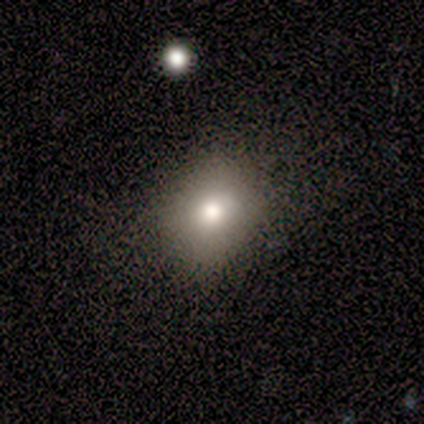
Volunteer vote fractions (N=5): A smooth galaxy with no disk features (80%) that is round (50%, tied with in between).

Vote fractions:
- Smooth or featured? smooth: 80% / featured or disk: 20% / star or artifact: 0%
- How rounded? round: 50% (tied) / in between: 50% (tied) / cigar-shaped: 0%
- Merging? none: 80% / minor disturbance: 20% / major disturbance: 0% / merger: 0%